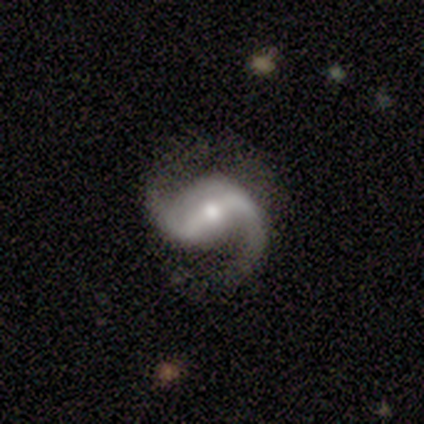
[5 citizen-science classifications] A featured or disk galaxy (100%) with a weak bar (60%), 2 (100%) medium (60%) spiral arms (100%) and a moderate central bulge (80%).

Vote fractions:
- Smooth or featured? featured or disk: 100% / smooth: 0% / star or artifact: 0%
- Edge-on disk? no: 100% / yes: 0%
- Bar? weak: 60% / strong: 40% / no: 0%
- Spiral arms? yes: 100% / no: 0%
- Spiral winding? medium: 60% / tight: 20% / loose: 20%
- Spiral arm count? 2: 100% / 1: 0% / 3: 0% / 4: 0% / more than 4: 0% / can't tell: 0%
- Bulge size? moderate: 80% / small: 20% / dominant: 0% / large: 0% / none: 0%
- Merging? none: 80% / minor disturbance: 20% / major disturbance: 0% / merger: 0%